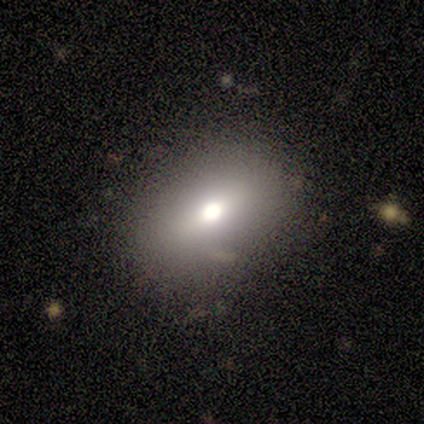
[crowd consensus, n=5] Volunteers were most divided on "smooth or featured": star or artifact: 60%, smooth: 20%, featured or disk: 20%.